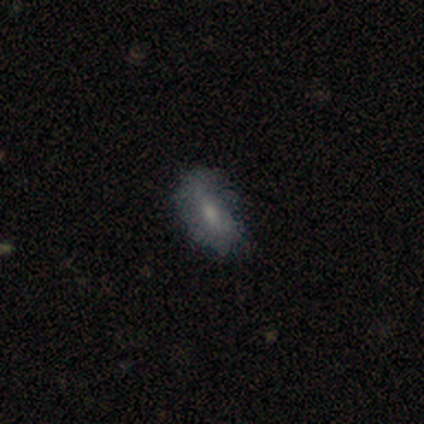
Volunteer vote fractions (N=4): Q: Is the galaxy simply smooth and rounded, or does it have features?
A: smooth — 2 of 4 (50%).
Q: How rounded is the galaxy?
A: in between — 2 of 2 (100%).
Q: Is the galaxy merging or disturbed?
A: none — 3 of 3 (100%).